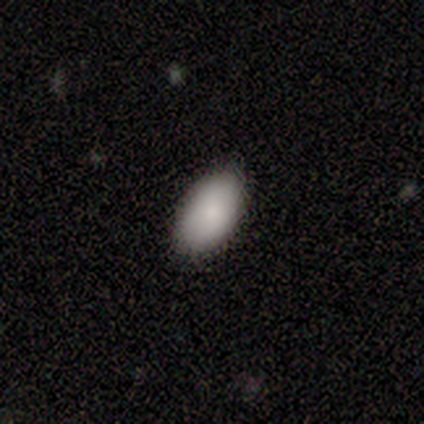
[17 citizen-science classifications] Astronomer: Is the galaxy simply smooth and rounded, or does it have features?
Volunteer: smooth — 94%.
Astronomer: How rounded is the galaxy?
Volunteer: in between — 100%.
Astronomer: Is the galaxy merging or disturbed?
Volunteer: none — 82%.